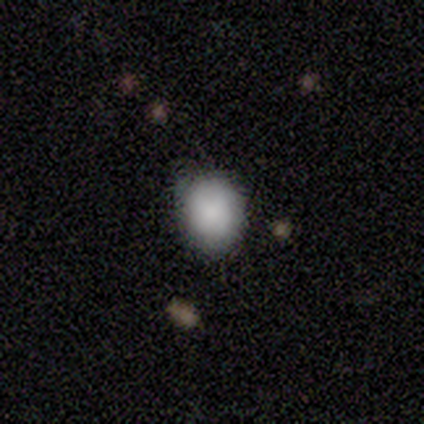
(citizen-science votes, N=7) Morphology: type=smooth (100%); roundness=round (71%); merging=none (71%).